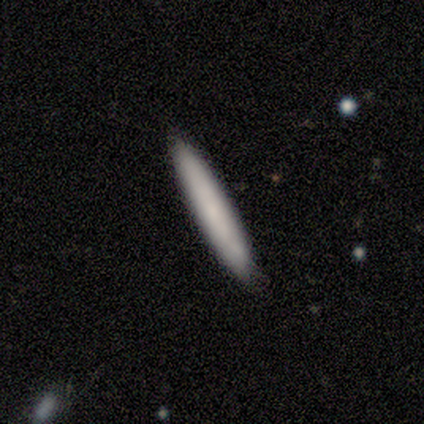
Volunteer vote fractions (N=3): Smooth or featured?
  - smooth: 67% *
  - featured or disk: 33%
  - star or artifact: 0%
How rounded?
  - cigar-shaped: 100% *
  - round: 0%
  - in between: 0%
Merging?
  - none: 100% *
  - minor disturbance: 0%
  - major disturbance: 0%
  - merger: 0%